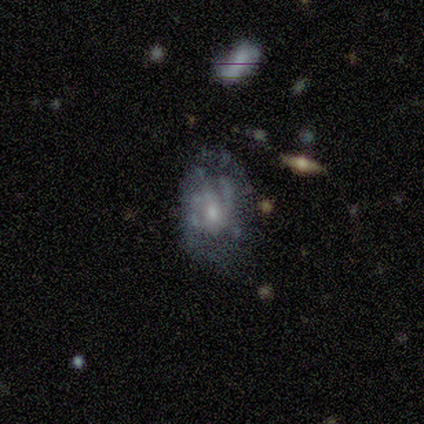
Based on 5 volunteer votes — A featured or disk galaxy (60%) with no bar (100%), no spiral arms (67%) and a moderate central bulge (100%). Merging: minor disturbance (50%).